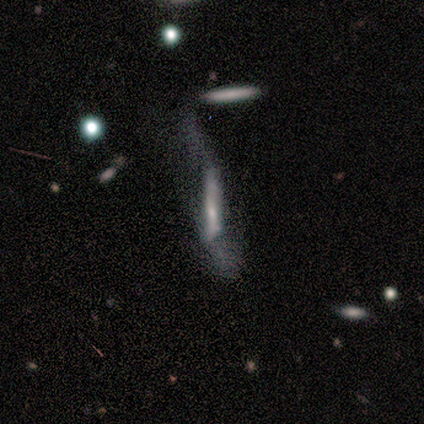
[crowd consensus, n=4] This appears to be a smooth galaxy with no disk features (50%) that is cigar-shaped (100%). Merging: major disturbance (100%).